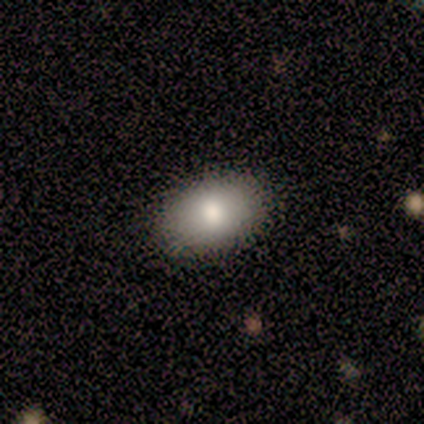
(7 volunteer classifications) This appears to be a smooth galaxy with no disk features (100%) that is in between round and cigar-shaped (86%). Merging: none (100%).